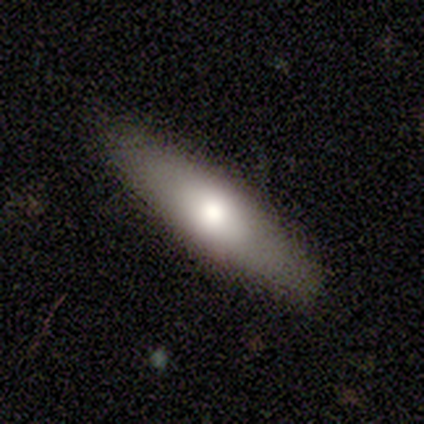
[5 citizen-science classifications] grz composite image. It shows a smooth galaxy with no disk features (100%) that is cigar-shaped (80%). Merging: none (100%).